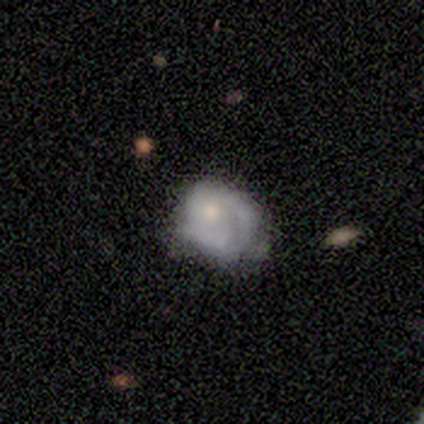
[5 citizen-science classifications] A smooth galaxy with no disk features (40%, tied with featured or disk) that is round (100%). Merging: none (50%, tied with major disturbance).